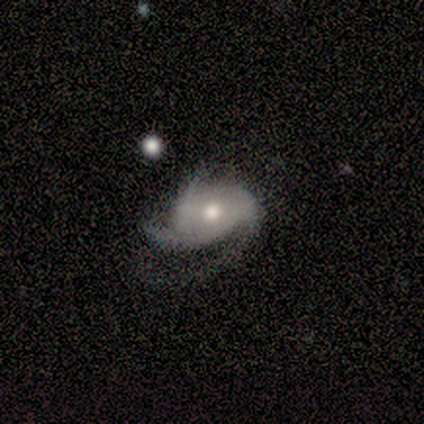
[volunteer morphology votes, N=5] type=featured or disk (80%); edge-on=no (100%); bar=weak (50%, tied with no); spiral arms=yes (75%); winding=medium (67%); arm count=3 (100%); bulge=moderate (50%, tied with small); merging=minor disturbance (50%).